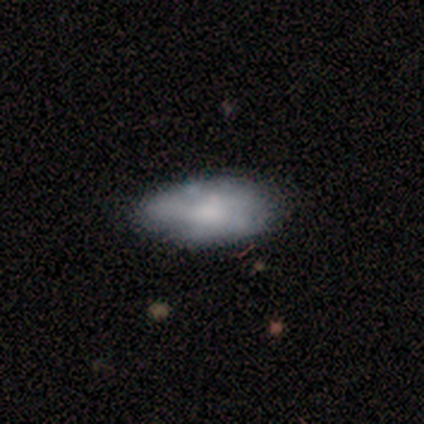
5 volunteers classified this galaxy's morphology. smooth-or-featured: smooth: 80% | featured or disk: 20% | star or artifact: 0%
  how-rounded: in between: 100% | round: 0% | cigar-shaped: 0%
  merging: minor disturbance: 60% | none: 40% | major disturbance: 0% | merger: 0%